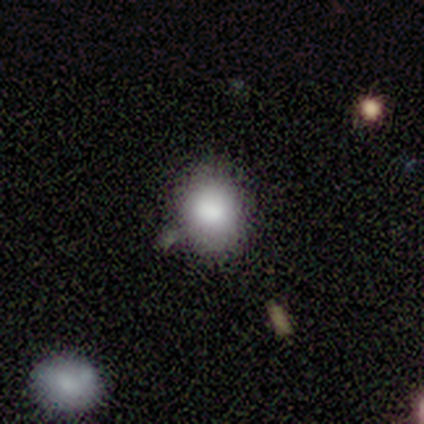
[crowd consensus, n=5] This appears to be a smooth galaxy with no disk features (80%) that is in between round and cigar-shaped (75%). Merging: none (60%).